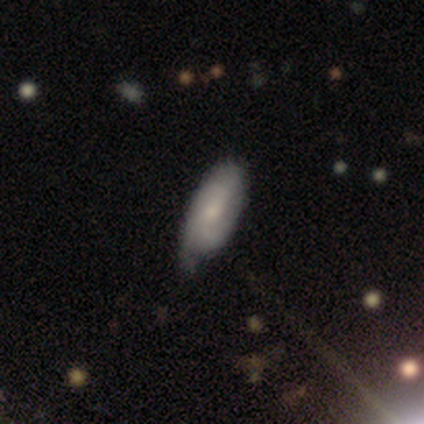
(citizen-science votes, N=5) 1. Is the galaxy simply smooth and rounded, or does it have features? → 60% smooth, 40% featured or disk, 0% star or artifact.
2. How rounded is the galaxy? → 100% in between, 0% round, 0% cigar-shaped.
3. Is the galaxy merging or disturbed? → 80% minor disturbance, 20% none, 0% major disturbance, 0% merger.